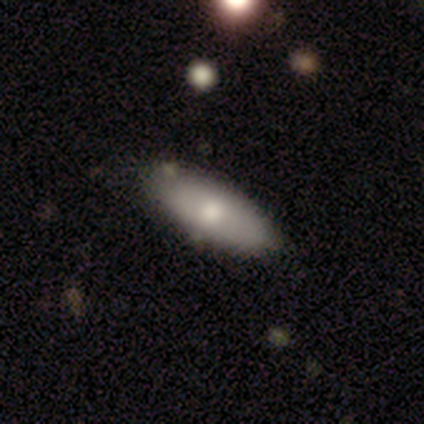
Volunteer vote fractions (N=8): This appears to be a smooth galaxy with no disk features (75%) that is in between round and cigar-shaped (83%). Merging: none (83%).